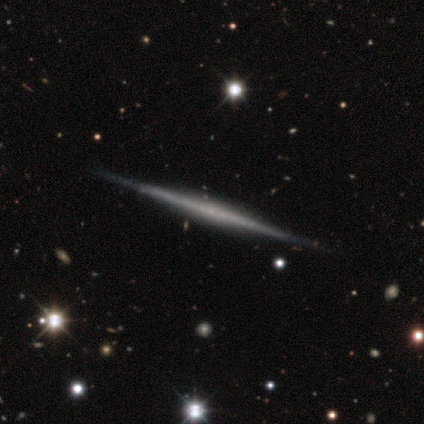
Smooth or featured?
  - featured or disk: 100% *
  - smooth: 0%
  - star or artifact: 0%
Edge-on disk?
  - yes: 100% *
  - no: 0%
Edge-on bulge?
  - none: 40% * (tied)
  - rounded: 40% * (tied)
  - boxy: 20%
Merging?
  - none: 80% *
  - minor disturbance: 20%
  - major disturbance: 0%
  - merger: 0%